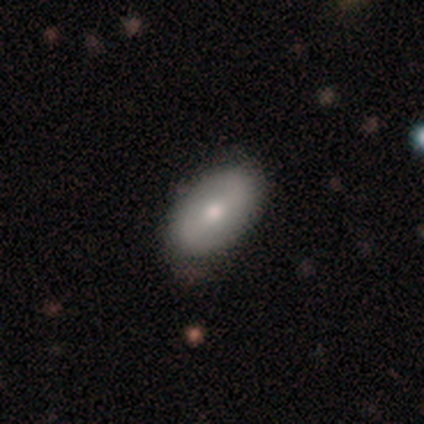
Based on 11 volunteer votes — smooth_or_featured: smooth (p=0.73) [alt: featured or disk p=0.27]
how_rounded: in between (p=1.00)
merging: none (p=0.73) [alt: minor disturbance p=0.27]